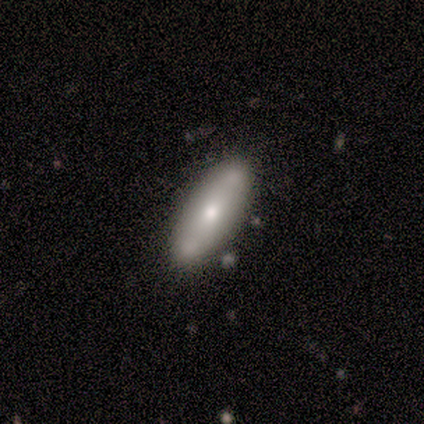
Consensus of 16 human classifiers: This appears to be a smooth galaxy with no disk features (62%) that is cigar-shaped (60%). Merging: none (88%).